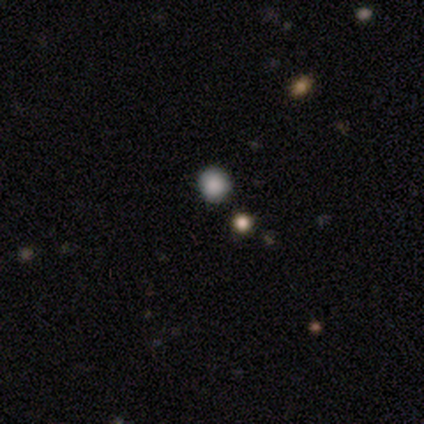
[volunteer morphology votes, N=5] Smooth or featured: smooth — 80% (featured or disk — 20%)
How rounded: round — 100%
Merging: none — 80% (merger — 20%)